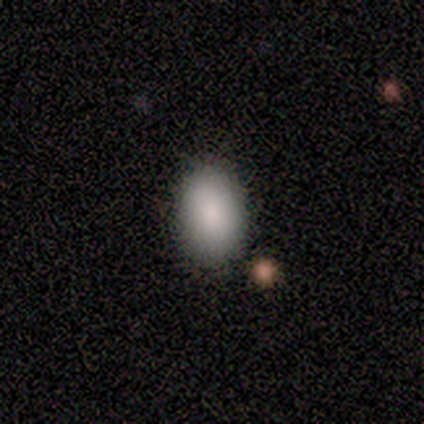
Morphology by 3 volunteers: type=smooth (100%); roundness=in between (67%); merging=none (67%).